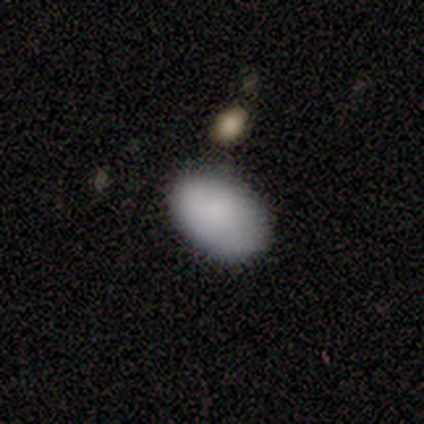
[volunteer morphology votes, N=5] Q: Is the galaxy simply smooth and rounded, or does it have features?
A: smooth — 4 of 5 (80%).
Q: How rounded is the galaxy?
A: in between — 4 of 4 (100%).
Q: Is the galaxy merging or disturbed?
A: none — 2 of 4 (50%).